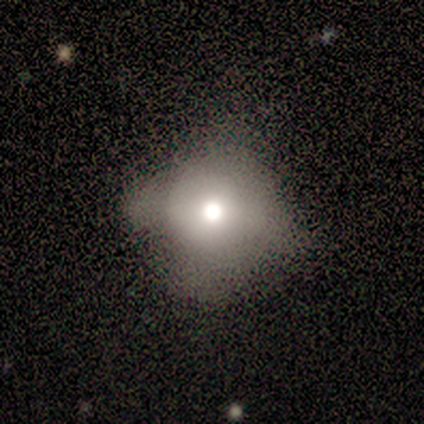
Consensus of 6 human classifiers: Smooth or featured? 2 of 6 (33%, tied with featured or disk and star or artifact) said smooth. How rounded? 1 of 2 (50%, tied with in between) said round. Merging? 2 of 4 (50%, tied with major disturbance) said minor disturbance.